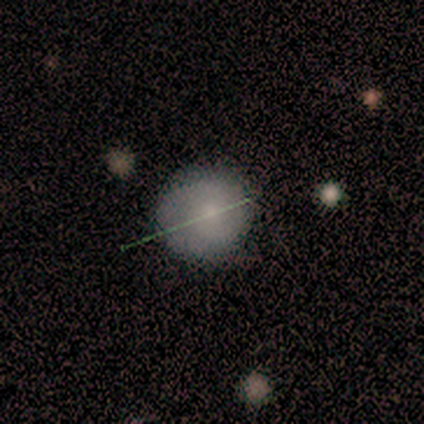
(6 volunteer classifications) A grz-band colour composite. It shows a featured or disk galaxy (67%) with no bar (75%), no spiral arms (75%) and a small central bulge (50%, tied with none). Merging: none (100%).